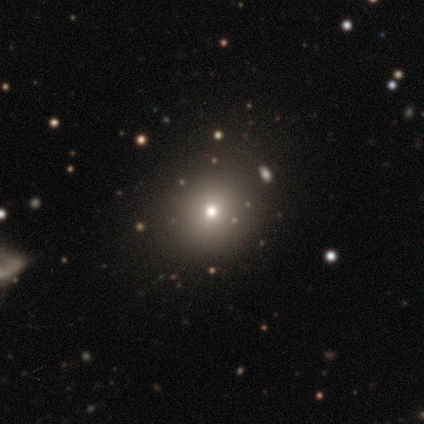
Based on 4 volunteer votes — This is likely a smooth galaxy (75%). How rounded: clearly round (100%). Merging: clearly none (100%).